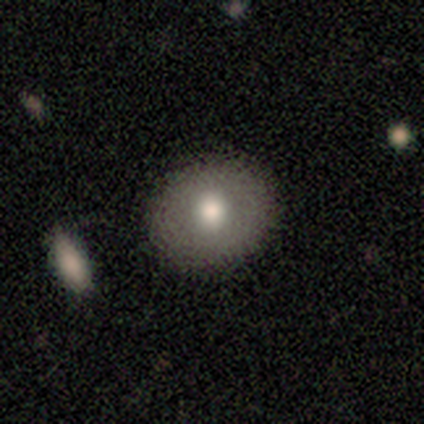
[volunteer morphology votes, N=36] smooth_or_featured: smooth (p=0.72) [alt: featured or disk p=0.25]
how_rounded: round (p=0.77) [alt: in between p=0.23]
merging: none (p=0.86) [alt: major disturbance p=0.09]